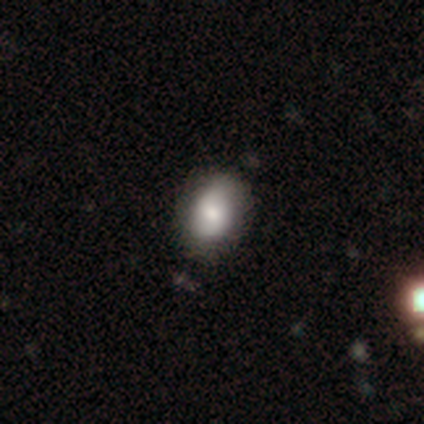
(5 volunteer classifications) Q: Smooth or featured?
A: featured or disk (60%); runner-up: star or artifact (40%)
Q: Edge-on disk?
A: no (67%); runner-up: yes (33%)
Q: Bar?
A: no (100%)
Q: Spiral arms?
A: yes (100%)
Q: Spiral winding?
A: tight (50%); tied with: loose (50%)
Q: Spiral arm count?
A: 2 (100%)
Q: Bulge size?
A: moderate (100%)
Q: Merging?
A: minor disturbance (67%); runner-up: none (33%)